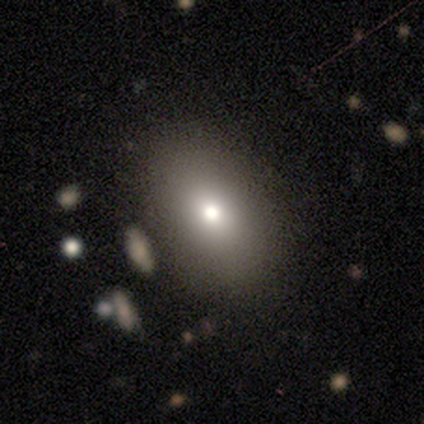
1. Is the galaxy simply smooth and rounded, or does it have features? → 79% smooth, 10% featured or disk, 10% star or artifact.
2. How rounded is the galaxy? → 87% in between, 13% round, 0% cigar-shaped.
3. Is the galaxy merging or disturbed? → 91% none, 3% minor disturbance, 3% major disturbance, 3% merger.